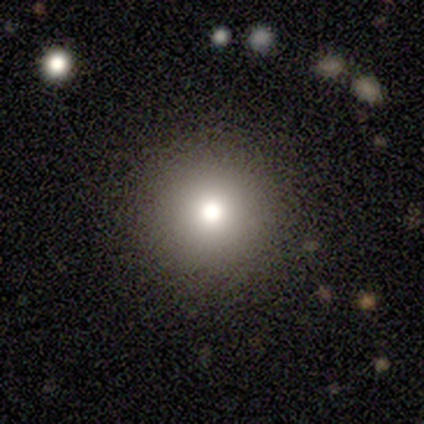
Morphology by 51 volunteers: Q: Smooth or featured?
A: smooth (84%); runner-up: star or artifact (10%)
Q: How rounded?
A: round (98%); runner-up: in between (2%)
Q: Merging?
A: none (93%); runner-up: minor disturbance (7%)